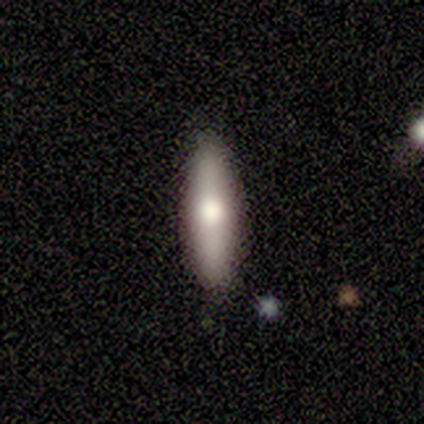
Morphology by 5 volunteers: Smooth or featured? 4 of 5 (80%) said smooth. How rounded? 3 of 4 (75%) said cigar-shaped. Merging? 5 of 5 (100%) said none.